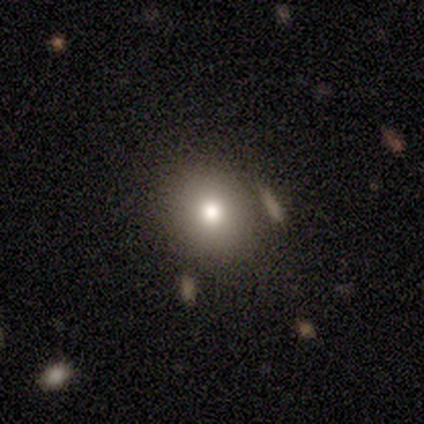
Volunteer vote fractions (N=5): This is clearly a smooth galaxy (80%). How rounded: likely round (75%). Merging: likely none (75%).